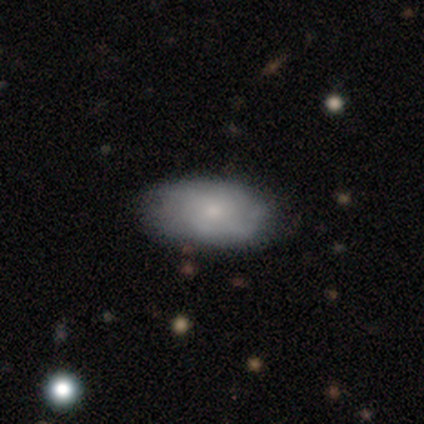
smooth_or_featured: smooth (p=0.51) [alt: featured or disk p=0.43]
how_rounded: in between (p=0.95) [alt: round p=0.05]
merging: none (p=0.66) [alt: minor disturbance p=0.29]